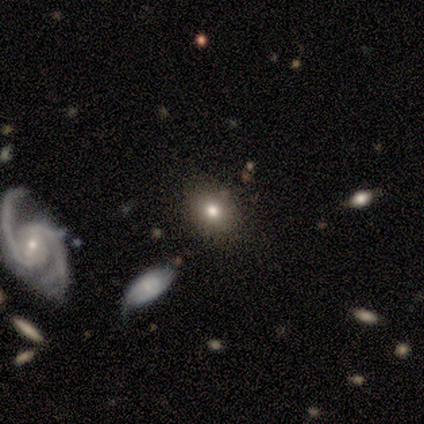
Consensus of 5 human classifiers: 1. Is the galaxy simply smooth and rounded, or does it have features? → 100% smooth, 0% featured or disk, 0% star or artifact.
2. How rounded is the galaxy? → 60% round, 40% in between, 0% cigar-shaped.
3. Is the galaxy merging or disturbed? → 80% none, 20% minor disturbance, 0% major disturbance, 0% merger.